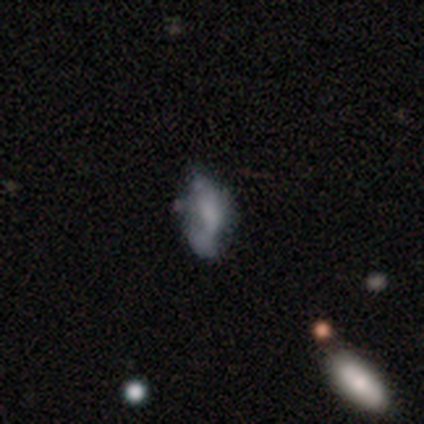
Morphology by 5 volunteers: A featured or disk galaxy (60%) with no bar (100%), no spiral arms (100%) and no central bulge (67%). Merging: none (40%, tied with minor disturbance).